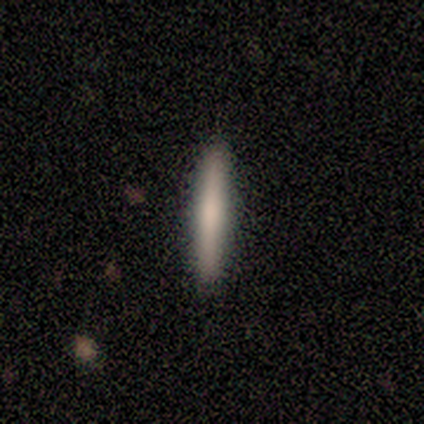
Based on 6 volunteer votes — Smooth or featured: smooth — 100%
How rounded: cigar-shaped — 100%
Merging: none — 100%